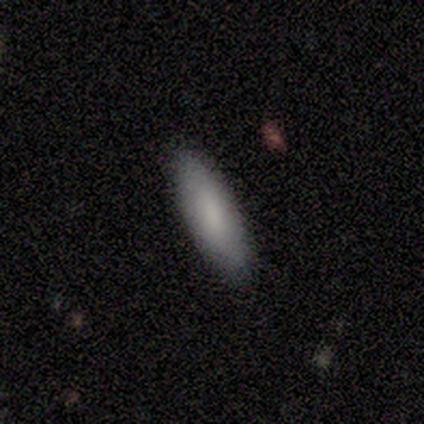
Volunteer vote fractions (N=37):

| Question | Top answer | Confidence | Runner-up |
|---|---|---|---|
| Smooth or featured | smooth | 86% | featured or disk (11%) |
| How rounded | in between | 62% | cigar-shaped (38%) |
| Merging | none | 58% | — |